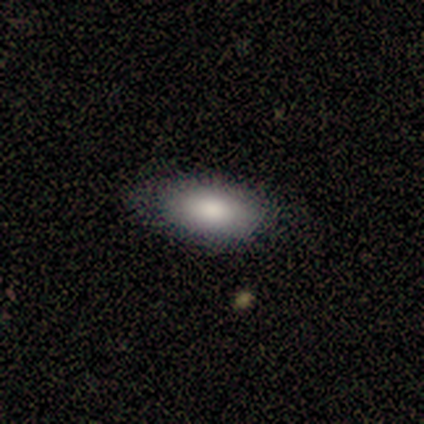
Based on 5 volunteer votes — smooth_or_featured: smooth (p=0.80) [alt: featured or disk p=0.20]
how_rounded: in between (p=1.00)
merging: none (p=1.00)